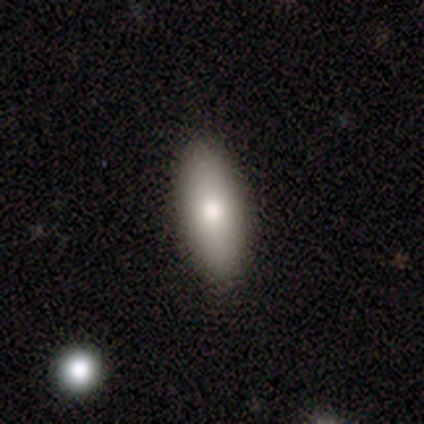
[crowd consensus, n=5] Overall: smooth (80%). How rounded: in between (50%, tied with cigar-shaped). Merging: none (100%).